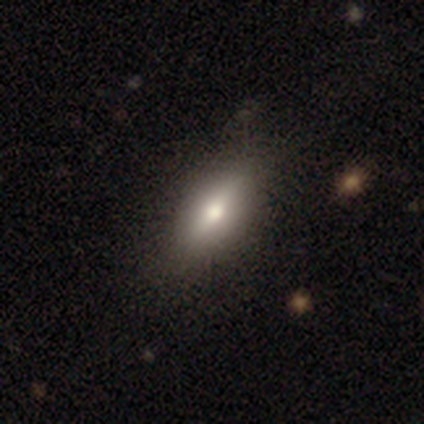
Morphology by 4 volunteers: This is clearly a featured or disk galaxy (100%). It is likely viewed edge-on (75%). Edge-on bulge: clearly rounded (100%). Merging: likely none (75%).